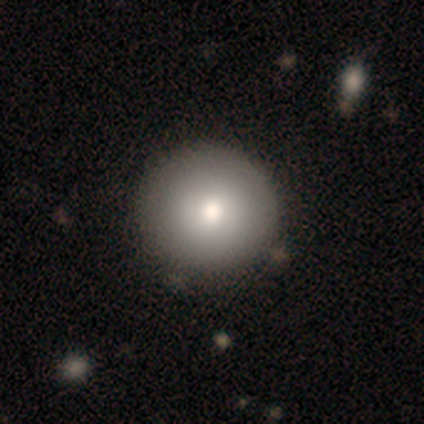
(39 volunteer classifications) A smooth galaxy with no disk features (82%) that is round (97%).

Vote fractions:
- Smooth or featured? smooth: 82% / featured or disk: 13% / star or artifact: 5%
- How rounded? round: 97% / in between: 3% / cigar-shaped: 0%
- Merging? none: 57% / minor disturbance: 5% / merger: 5% / major disturbance: 0%